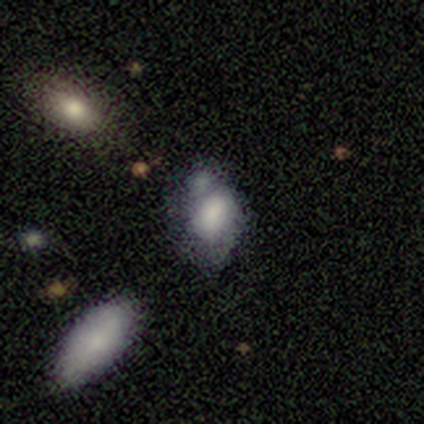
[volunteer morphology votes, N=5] Smooth or featured? smooth (60%)
How rounded? round (33%, tied with in between and cigar-shaped)
Merging? minor disturbance (50%)